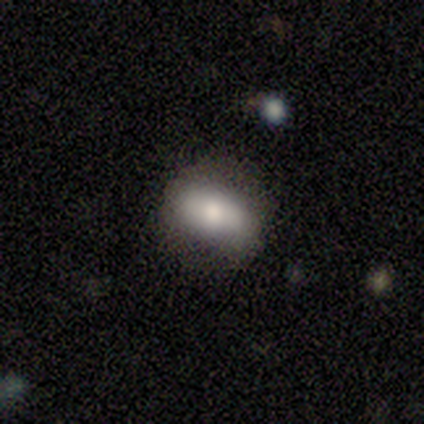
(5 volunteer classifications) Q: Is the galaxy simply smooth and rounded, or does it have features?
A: smooth — 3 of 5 (60%).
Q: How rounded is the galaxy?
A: in between — 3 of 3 (100%).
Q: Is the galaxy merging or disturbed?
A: none — 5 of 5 (100%).